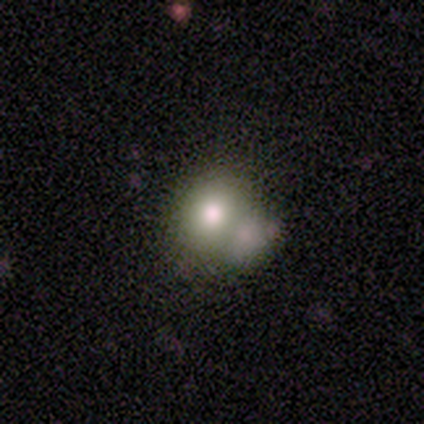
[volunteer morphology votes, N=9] Smooth or featured: smooth — 78% (featured or disk — 11%)
How rounded: round — 86% (in between — 14%)
Merging: none — 62% (merger — 25%)